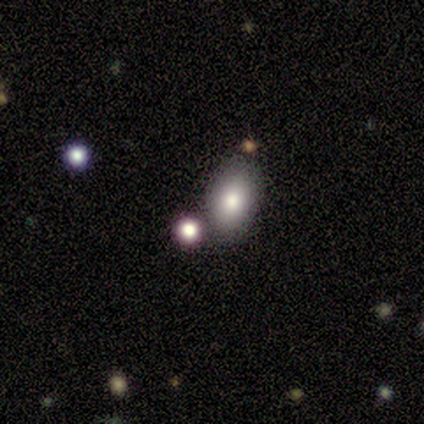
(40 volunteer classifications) This is clearly a smooth galaxy (80%). How rounded: clearly in between (84%). Merging: likely none (72%).